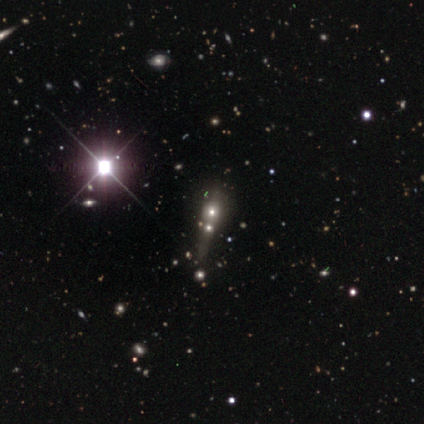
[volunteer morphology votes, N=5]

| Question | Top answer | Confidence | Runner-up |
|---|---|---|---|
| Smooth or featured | smooth | 40% | tied: star or artifact (40%) |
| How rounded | round | 50% | tied: in between (50%) |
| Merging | merger | 67% | none (33%) |